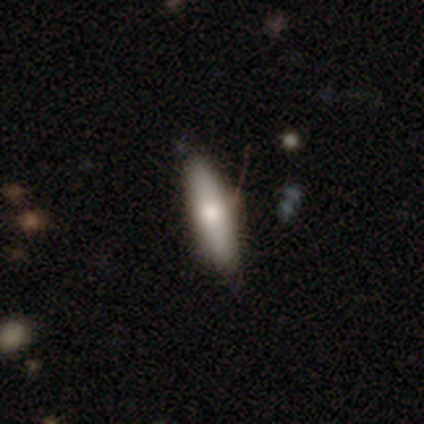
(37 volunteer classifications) Smooth or featured? 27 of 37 (73%) said smooth. How rounded? 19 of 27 (70%) said cigar-shaped. Merging? 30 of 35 (86%) said none.